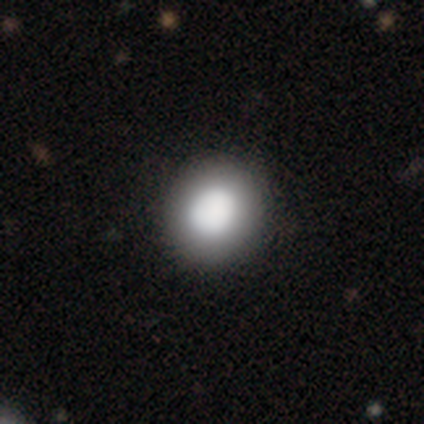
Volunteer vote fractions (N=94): smooth 71%, star or artifact 16%, featured or disk 13%. Down the decision tree: how rounded — round (84%); merging — none (87%).